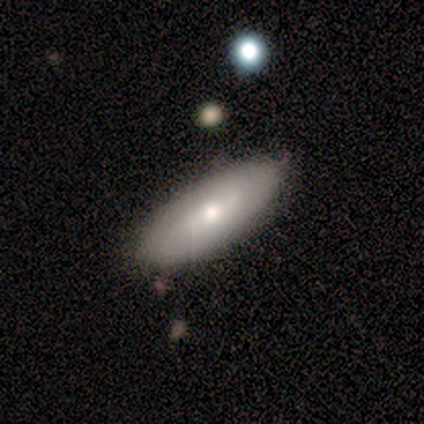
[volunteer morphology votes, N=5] Smooth or featured? featured or disk (60%)
Edge-on disk? no (100%)
Bar? no (67%)
Spiral arms? no (67%)
Bulge size? small (67%)
Merging? none (100%)